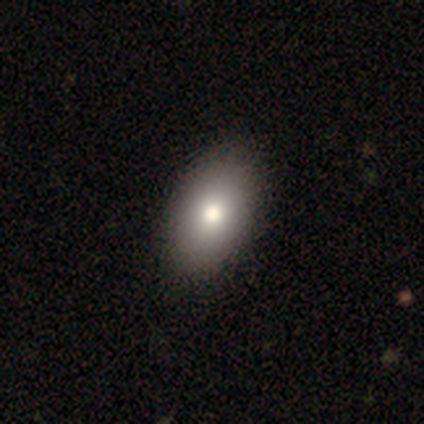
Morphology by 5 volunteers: A smooth galaxy with no disk features (100%) that is round (60%).

Vote fractions:
- Smooth or featured? smooth: 100% / featured or disk: 0% / star or artifact: 0%
- How rounded? round: 60% / in between: 40% / cigar-shaped: 0%
- Merging? none: 100% / minor disturbance: 0% / major disturbance: 0% / merger: 0%